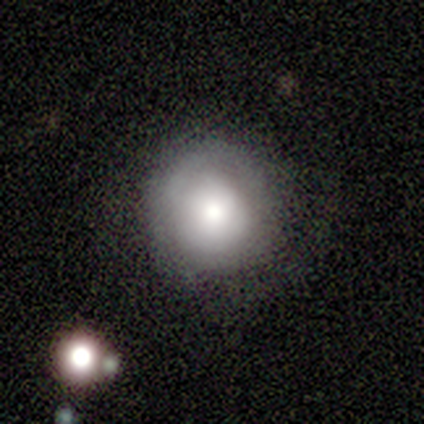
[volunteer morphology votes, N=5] smooth-or-featured: smooth: 60% | featured or disk: 20% | star or artifact: 20%
  how-rounded: round: 100% | in between: 0% | cigar-shaped: 0%
  merging: none: 100% | minor disturbance: 0% | major disturbance: 0% | merger: 0%